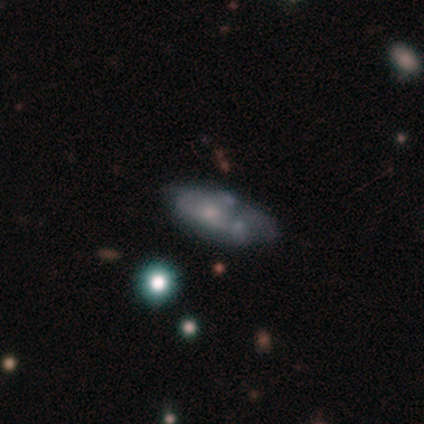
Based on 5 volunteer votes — Morphology: type=smooth (40%, tied with featured or disk); roundness=in between (100%); merging=merger (50%).